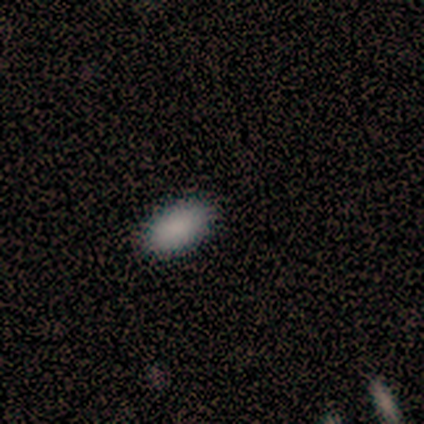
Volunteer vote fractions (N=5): Smooth or featured: smooth — 100%
How rounded: in between — 100%
Merging: none — 80% (minor disturbance — 20%)